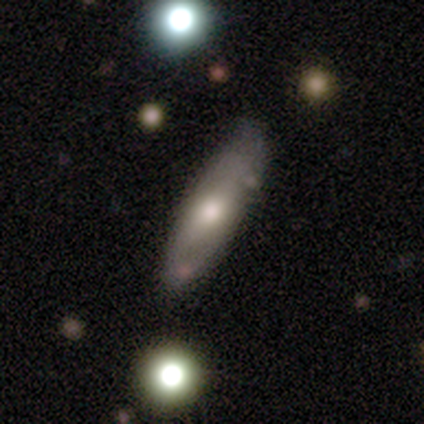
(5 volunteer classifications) smooth 80%, featured or disk 20%, star or artifact 0%. Down the decision tree: how rounded — in between (75%); merging — none (80%).